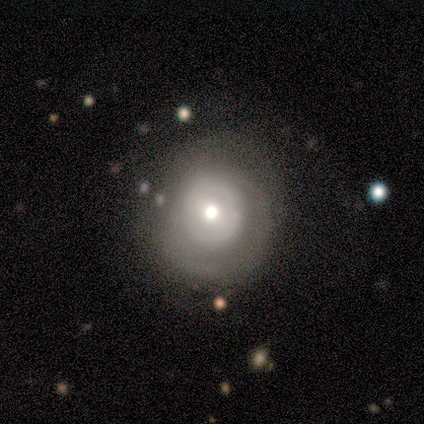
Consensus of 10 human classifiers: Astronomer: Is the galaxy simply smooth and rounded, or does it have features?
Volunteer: featured or disk — 50% (runner-up: smooth, 40%).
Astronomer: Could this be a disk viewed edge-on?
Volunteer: no — 100%.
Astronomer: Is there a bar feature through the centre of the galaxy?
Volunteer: no — 100%.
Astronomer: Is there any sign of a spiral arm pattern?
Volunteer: yes — 60% (runner-up: no, 40%).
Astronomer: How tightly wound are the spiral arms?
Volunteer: tight — 100%.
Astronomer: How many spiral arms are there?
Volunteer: can't tell — 100%.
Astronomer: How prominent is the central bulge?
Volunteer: moderate — 80%.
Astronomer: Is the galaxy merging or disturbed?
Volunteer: none — 67%.